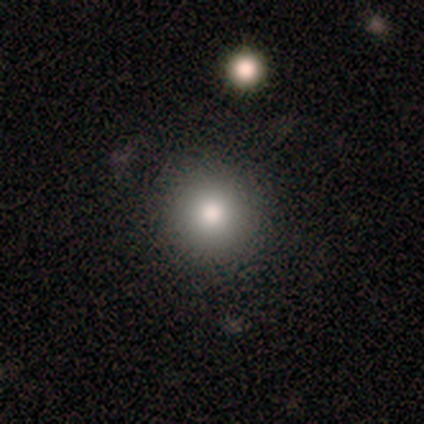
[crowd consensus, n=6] Smooth or featured?
  - smooth: 83% *
  - featured or disk: 17%
  - star or artifact: 0%
How rounded?
  - round: 80% *
  - cigar-shaped: 20%
  - in between: 0%
Merging?
  - none: 67% *
  - minor disturbance: 33%
  - major disturbance: 0%
  - merger: 0%